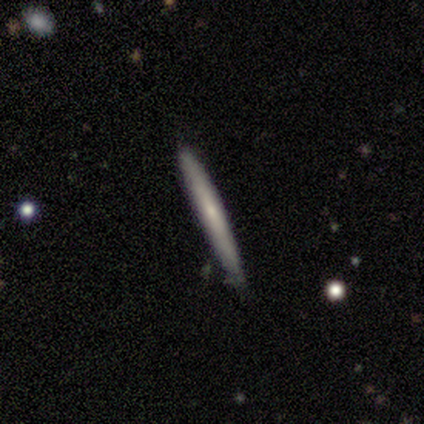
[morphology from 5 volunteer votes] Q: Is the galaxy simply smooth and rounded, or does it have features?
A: smooth — 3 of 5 (60%).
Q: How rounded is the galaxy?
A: cigar-shaped — 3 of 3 (100%).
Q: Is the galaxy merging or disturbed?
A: none — 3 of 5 (60%).